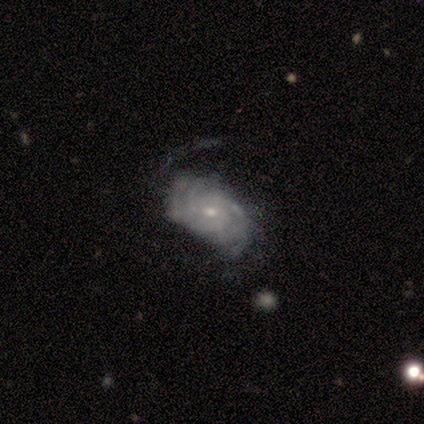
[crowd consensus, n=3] smooth-or-featured: featured or disk: 100% | smooth: 0% | star or artifact: 0%
  disk-edge-on: no: 100% | yes: 0%
    bar: no: 67% | weak: 33% | strong: 0%
    has-spiral-arms: yes: 67% | no: 33%
      spiral-winding: loose: 100% | tight: 0% | medium: 0%
      spiral-arm-count: 2: 50% (tied) | can't tell: 50% (tied) | 1: 0% | 3: 0% | 4: 0% | more than 4: 0%
    bulge-size: small: 100% | dominant: 0% | large: 0% | moderate: 0% | none: 0%
  merging: none: 100% | minor disturbance: 0% | major disturbance: 0% | merger: 0%